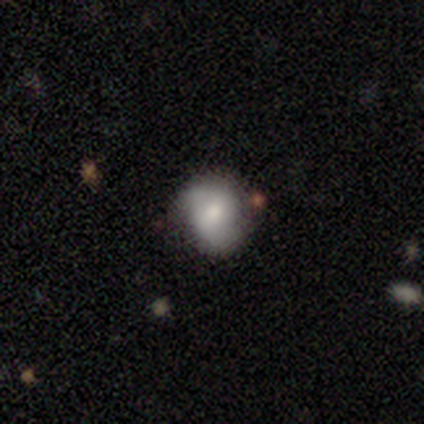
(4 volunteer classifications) A featured or disk galaxy (50%) with a weak bar (100%), 2 (100%) medium (100%) spiral arms (100%) and a moderate central bulge (100%).

Vote fractions:
- Smooth or featured? featured or disk: 50% / smooth: 25% / star or artifact: 25%
- Edge-on disk? no: 100% / yes: 0%
- Bar? weak: 100% / strong: 0% / no: 0%
- Spiral arms? yes: 100% / no: 0%
- Spiral winding? medium: 100% / tight: 0% / loose: 0%
- Spiral arm count? 2: 100% / 1: 0% / 3: 0% / 4: 0% / more than 4: 0% / can't tell: 0%
- Bulge size? moderate: 100% / dominant: 0% / large: 0% / small: 0% / none: 0%
- Merging? none: 100% / minor disturbance: 0% / major disturbance: 0% / merger: 0%